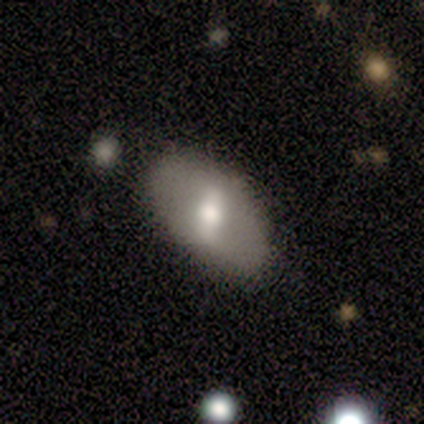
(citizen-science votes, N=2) Smooth or featured?
  - smooth: 50% * (tied)
  - featured or disk: 50% * (tied)
  - star or artifact: 0%
How rounded?
  - in between: 100% *
  - round: 0%
  - cigar-shaped: 0%
Merging?
  - none: 50% * (tied)
  - major disturbance: 50% * (tied)
  - minor disturbance: 0%
  - merger: 0%